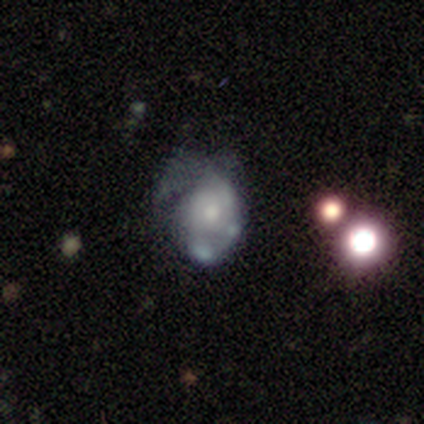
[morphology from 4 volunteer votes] Smooth or featured? 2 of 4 (50%) said featured or disk. Edge-on disk? 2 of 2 (100%) said no. Bar? 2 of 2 (100%) said no. Spiral arms? 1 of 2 (50%, tied with no) said yes. Spiral winding? 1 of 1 (100%) said tight. Spiral arm count? 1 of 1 (100%) said can't tell. Bulge size? 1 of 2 (50%, tied with small) said moderate. Merging? 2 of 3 (67%) said major disturbance.